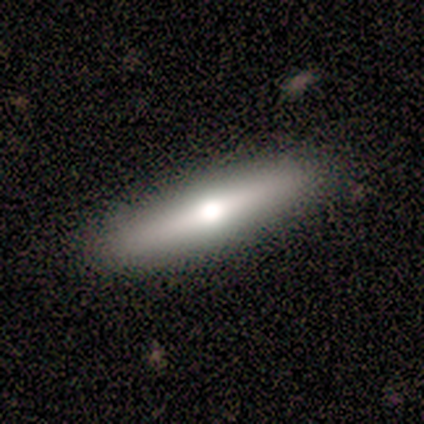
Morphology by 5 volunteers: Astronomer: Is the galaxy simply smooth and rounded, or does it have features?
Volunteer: smooth — 60%.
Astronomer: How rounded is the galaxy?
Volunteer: cigar-shaped — 67%.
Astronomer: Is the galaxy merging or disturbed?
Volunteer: none — 100%.